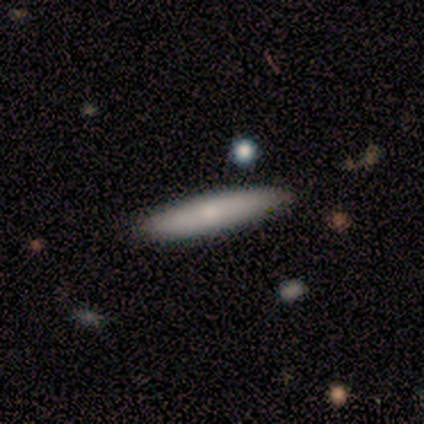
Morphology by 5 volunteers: smooth_or_featured: smooth (p=0.80) [alt: featured or disk p=0.20]
how_rounded: cigar-shaped (p=0.75) [alt: in between p=0.25]
merging: none (p=1.00)